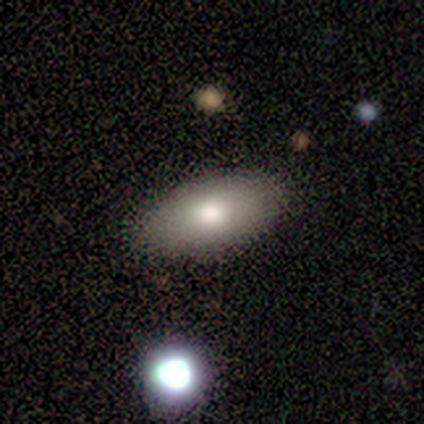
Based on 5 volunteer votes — Smooth or featured?
  - smooth: 80% *
  - featured or disk: 20%
  - star or artifact: 0%
How rounded?
  - in between: 100% *
  - round: 0%
  - cigar-shaped: 0%
Merging?
  - none: 80% *
  - minor disturbance: 20%
  - major disturbance: 0%
  - merger: 0%